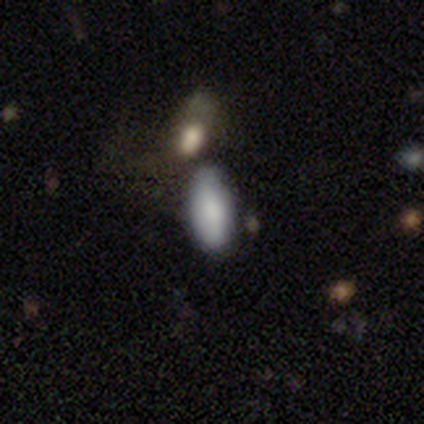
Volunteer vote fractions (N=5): A smooth galaxy with no disk features (80%) that is in between round and cigar-shaped (100%). Merging: none (75%).